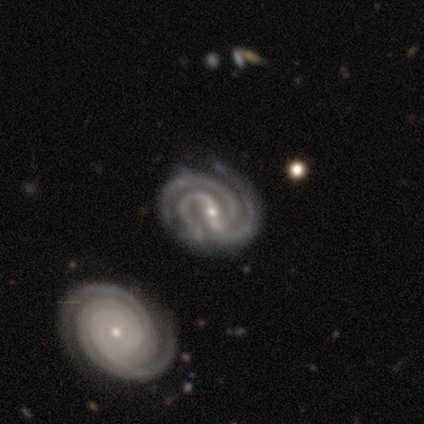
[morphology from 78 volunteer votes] Overall: featured or disk (96%). Edge-on disk: no (99%). Bar: strong (62%; weak 26%). Spiral arms: yes (100%). Spiral arm count: 3 (70%). Spiral winding: tight (64%; medium 34%). Bulge size: small (73%). Merging: none (50%; merger 11%).